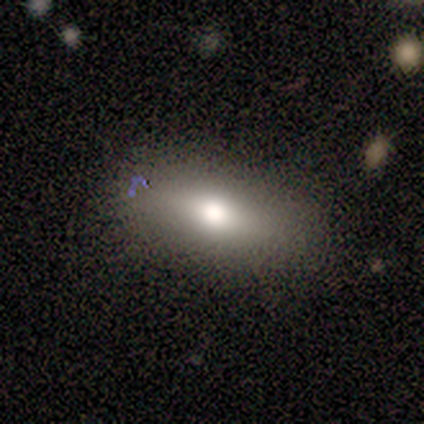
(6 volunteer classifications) Volunteers were most divided on "how rounded": in between: 80%, cigar-shaped: 20%, round: 0%. More confident: merging — none (100%); smooth or featured — smooth (83%).